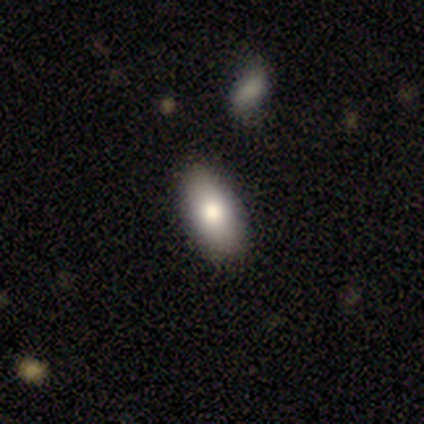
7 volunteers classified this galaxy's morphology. Volunteers were most divided on "how rounded": in between: 83%, cigar-shaped: 17%, round: 0%. More confident: merging — none (100%); smooth or featured — smooth (86%).